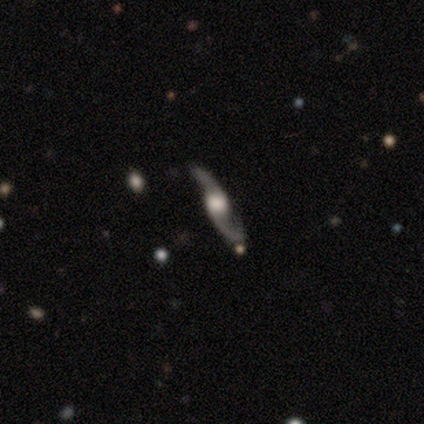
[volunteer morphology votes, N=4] Smooth or featured? featured or disk (75%)
Edge-on disk? no (67%)
Bar? no (100%)
Spiral arms? yes (100%)
Spiral winding? medium (100%)
Spiral arm count? 2 (100%)
Bulge size? moderate (50%, tied with none)
Merging? none (75%)